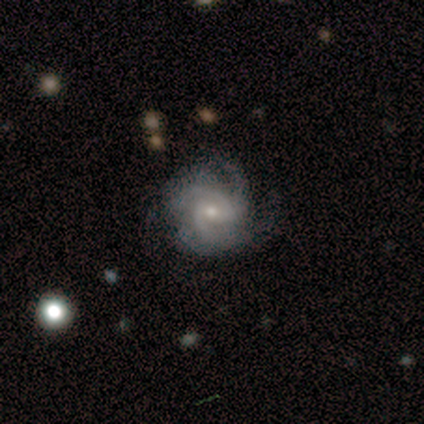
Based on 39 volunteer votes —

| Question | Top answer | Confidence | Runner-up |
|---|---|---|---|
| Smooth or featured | featured or disk | 92% | smooth (8%) |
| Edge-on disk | no | 100% | — |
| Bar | weak | 53% | no (44%) |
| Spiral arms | yes | 94% | no (6%) |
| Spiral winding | medium | 56% | tight (35%) |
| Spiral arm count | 3 | 47% | 2 (24%) |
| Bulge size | small | 56% | moderate (39%) |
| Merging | none | 72% | minor disturbance (26%) |